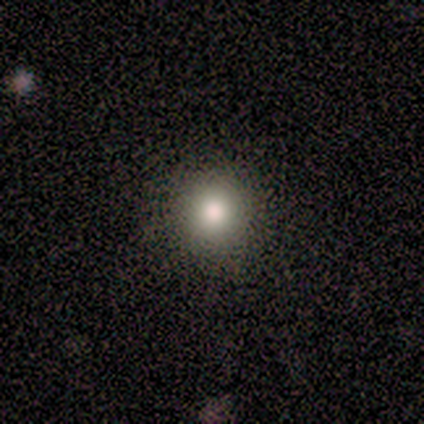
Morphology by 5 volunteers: This is clearly a smooth galaxy (80%). How rounded: clearly round (100%). Merging: likely none (75%).